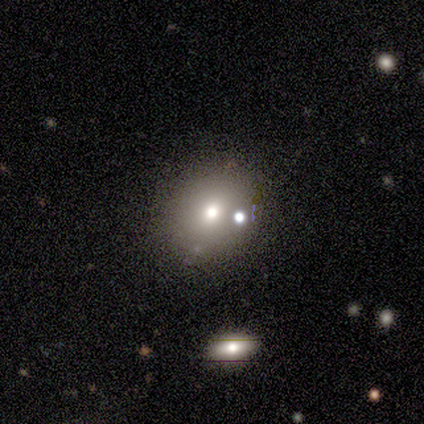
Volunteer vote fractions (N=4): A smooth galaxy with no disk features (100%) that is round (100%).

Vote fractions:
- Smooth or featured? smooth: 100% / featured or disk: 0% / star or artifact: 0%
- How rounded? round: 100% / in between: 0% / cigar-shaped: 0%
- Merging? none: 50% (tied) / minor disturbance: 50% (tied) / major disturbance: 0% / merger: 0%